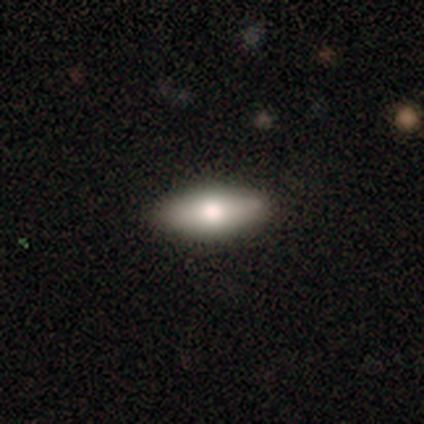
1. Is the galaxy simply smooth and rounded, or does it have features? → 73% smooth, 21% featured or disk, 6% star or artifact.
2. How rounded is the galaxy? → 82% in between, 18% cigar-shaped, 0% round.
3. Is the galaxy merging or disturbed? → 59% none, 8% minor disturbance, 1% major disturbance, 0% merger.